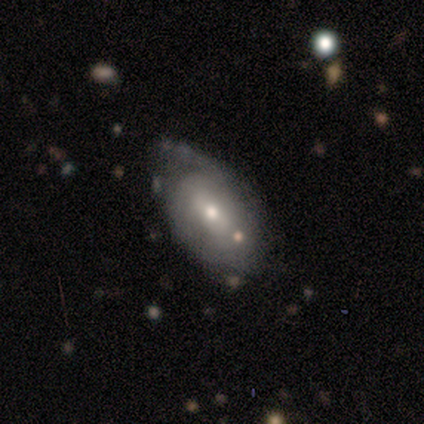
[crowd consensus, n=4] A featured or disk galaxy (100%) with a strong bar (33%, tied with weak and no), 1 (50%, tied with can't tell) tight (50%, tied with loose) spiral arms (67%) and a moderate central bulge (67%). Merging: none (50%, tied with minor disturbance).